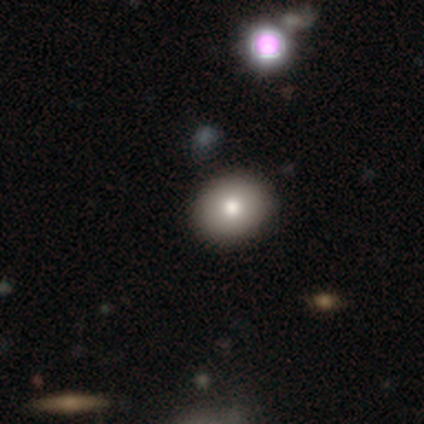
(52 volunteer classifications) This is likely a smooth galaxy (73%). How rounded: possibly round (58%). Merging: clearly none (93%).